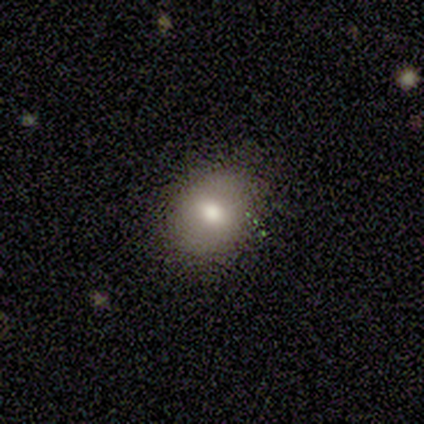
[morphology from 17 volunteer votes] Volunteers were most divided on "how rounded": round: 62%, in between: 38%, cigar-shaped: 0%. More confident: smooth or featured — smooth (76%); merging — none (75%).